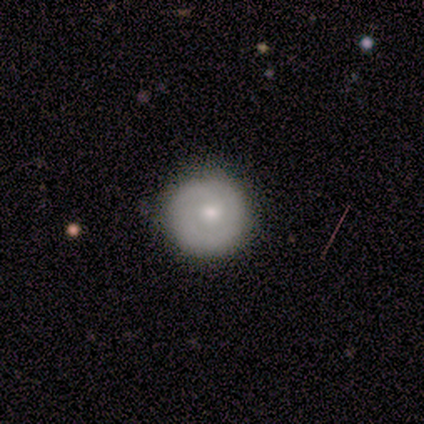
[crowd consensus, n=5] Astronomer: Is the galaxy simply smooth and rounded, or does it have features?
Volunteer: smooth — 60%.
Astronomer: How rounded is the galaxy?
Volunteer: round — 100%.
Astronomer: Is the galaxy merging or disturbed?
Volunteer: none — 100%.